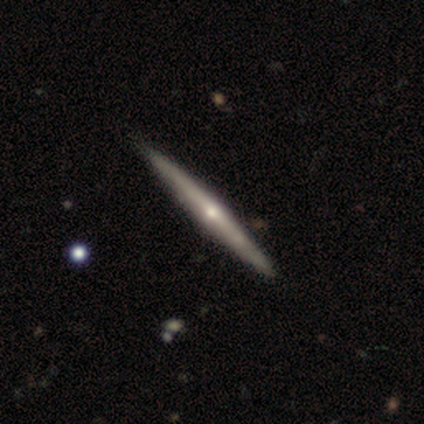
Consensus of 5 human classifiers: smooth-or-featured: featured or disk: 80% | smooth: 20% | star or artifact: 0%
  disk-edge-on: yes: 100% | no: 0%
    edge-on-bulge: rounded: 75% | none: 25% | boxy: 0%
  merging: none: 80% | minor disturbance: 20% | major disturbance: 0% | merger: 0%